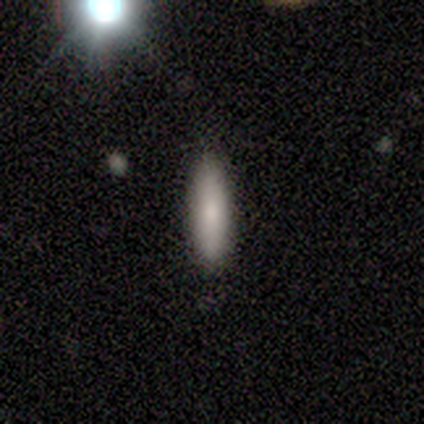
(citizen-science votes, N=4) This appears to be a smooth galaxy with no disk features (75%) that is cigar-shaped (67%). Merging: none (75%).